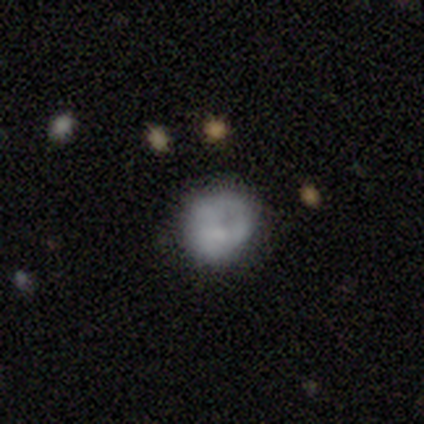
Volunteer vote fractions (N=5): Overall: smooth (40%, tied with star or artifact). How rounded: round (50%, tied with in between). Merging: major disturbance (67%; none 33%).